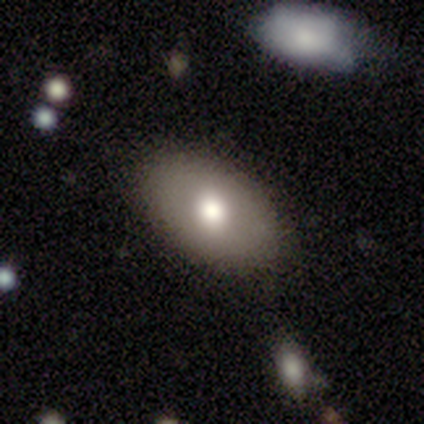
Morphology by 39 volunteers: Q: Smooth or featured?
A: smooth (56%); runner-up: featured or disk (31%)
Q: How rounded?
A: in between (91%); runner-up: round (9%)
Q: Merging?
A: none (79%); runner-up: minor disturbance (15%)